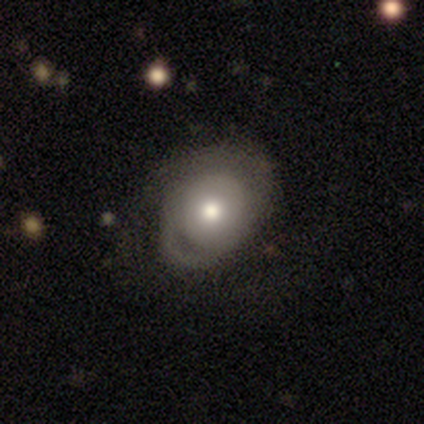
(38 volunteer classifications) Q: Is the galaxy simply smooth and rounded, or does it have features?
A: featured or disk — 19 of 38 (50%).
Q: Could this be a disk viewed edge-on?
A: no — 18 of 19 (95%).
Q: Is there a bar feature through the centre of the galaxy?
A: no — 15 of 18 (83%).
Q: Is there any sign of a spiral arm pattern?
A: no — 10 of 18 (56%).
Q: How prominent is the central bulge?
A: moderate — 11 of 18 (61%).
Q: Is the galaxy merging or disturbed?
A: minor disturbance — 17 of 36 (47%).